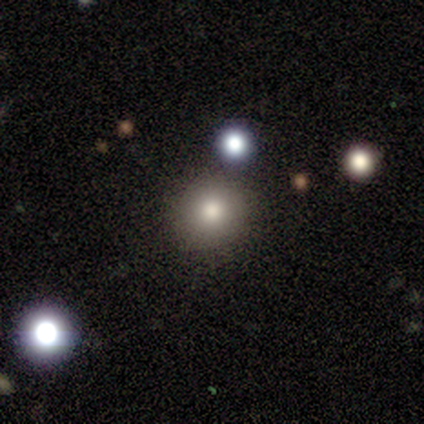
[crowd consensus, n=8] smooth-or-featured: smooth: 75% | featured or disk: 12% | star or artifact: 12%
  how-rounded: round: 100% | in between: 0% | cigar-shaped: 0%
  merging: none: 100% | minor disturbance: 0% | major disturbance: 0% | merger: 0%